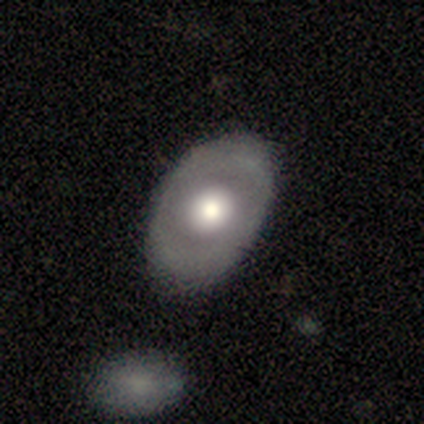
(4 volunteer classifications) Overall: smooth (50%, tied with featured or disk). How rounded: round (50%, tied with in between). Merging: none (100%).